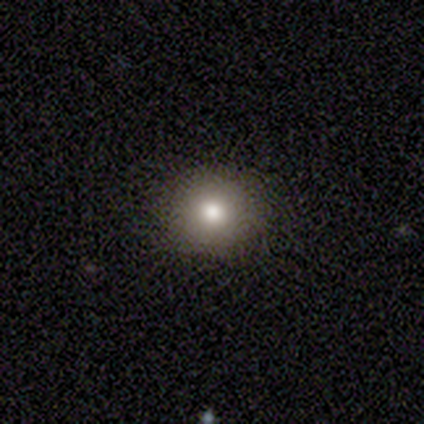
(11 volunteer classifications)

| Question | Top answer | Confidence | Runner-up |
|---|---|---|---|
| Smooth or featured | smooth | 82% | featured or disk (9%) |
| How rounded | round | 100% | — |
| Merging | none | 90% | minor disturbance (10%) |